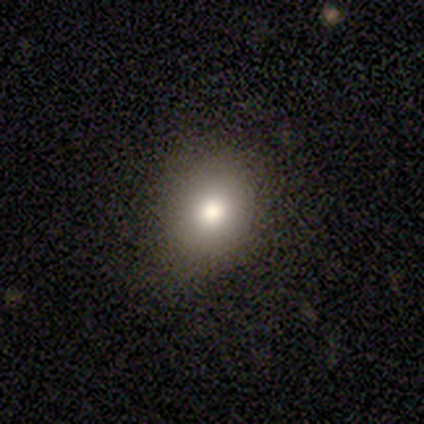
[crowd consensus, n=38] A smooth galaxy with no disk features (74%) that is round (64%). Merging: none (82%).